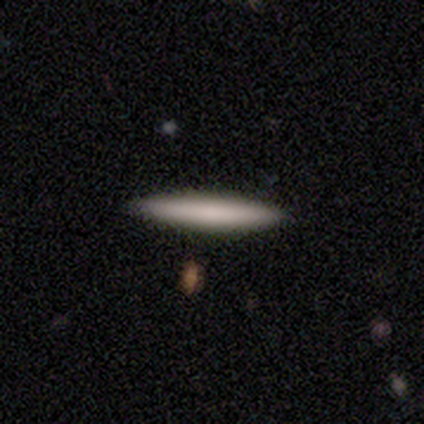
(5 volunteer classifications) Smooth or featured? smooth (80%)
How rounded? cigar-shaped (100%)
Merging? none (80%)